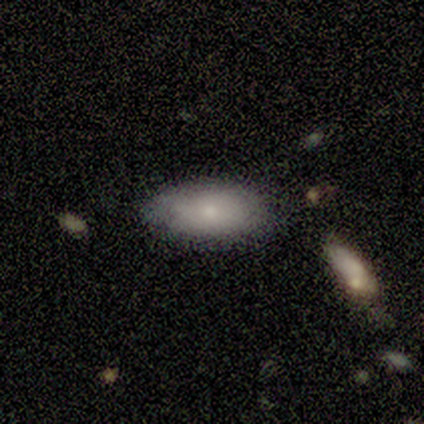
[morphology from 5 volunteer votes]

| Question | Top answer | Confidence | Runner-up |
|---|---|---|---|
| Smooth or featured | smooth | 100% | — |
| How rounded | in between | 100% | — |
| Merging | none | 60% | minor disturbance (40%) |